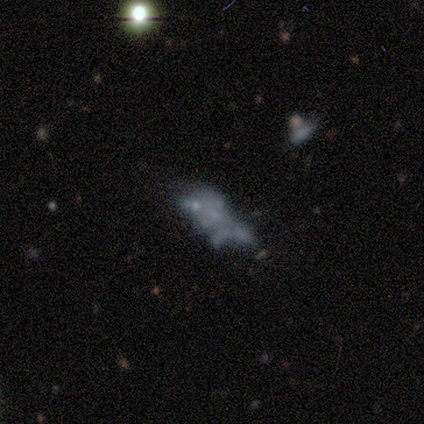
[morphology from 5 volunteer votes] Overall: featured or disk (60%; smooth 20%). Edge-on disk: no (100%). Bar: no (100%). Spiral arms: no (100%). Bulge size: none (100%). Merging: merger (50%; minor disturbance 25%).